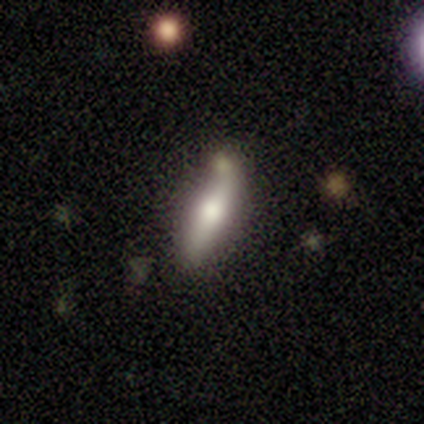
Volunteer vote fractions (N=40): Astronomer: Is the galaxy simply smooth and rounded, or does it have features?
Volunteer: featured or disk — 48% (runner-up: smooth, 45%).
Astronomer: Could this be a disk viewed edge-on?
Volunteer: yes — 84%.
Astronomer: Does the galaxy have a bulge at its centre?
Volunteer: rounded — 81%.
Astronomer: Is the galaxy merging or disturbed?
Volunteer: none — 70%.